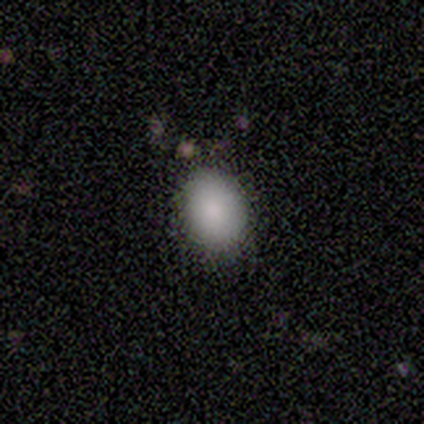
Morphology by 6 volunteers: This is clearly a smooth galaxy (100%). How rounded: likely in between (67%). Merging: likely none (67%).